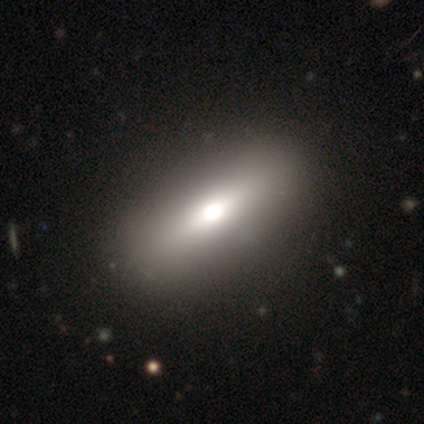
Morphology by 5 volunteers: Overall: smooth (80%). How rounded: in between (75%). Merging: minor disturbance (100%).